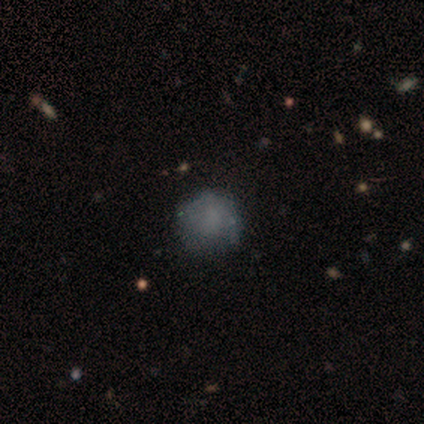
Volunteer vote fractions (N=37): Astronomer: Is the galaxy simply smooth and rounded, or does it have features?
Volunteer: smooth — 65%.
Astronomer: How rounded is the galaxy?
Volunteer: round — 88%.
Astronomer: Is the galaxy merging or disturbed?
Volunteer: none — 62%.